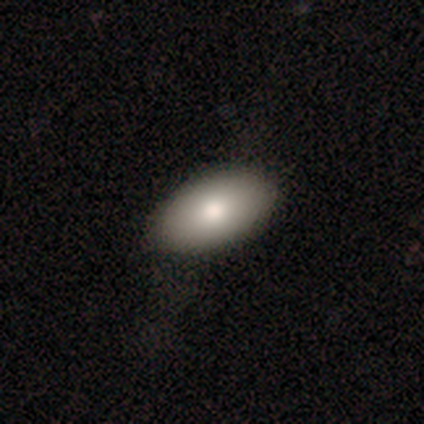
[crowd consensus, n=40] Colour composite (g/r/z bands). It shows a smooth galaxy with no disk features (95%) that is in between round and cigar-shaped (97%). Merging: none (79%).